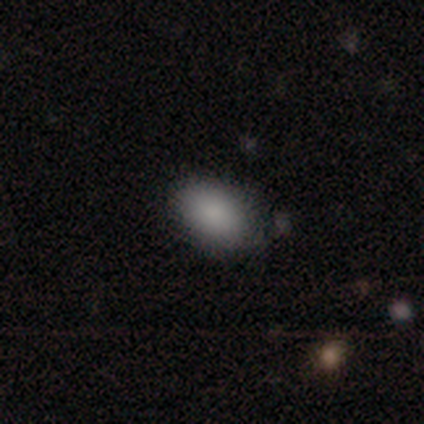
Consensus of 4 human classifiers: Q: Smooth or featured?
A: smooth (100%)
Q: How rounded?
A: in between (100%)
Q: Merging?
A: none (50%); runner-up: minor disturbance (25%)